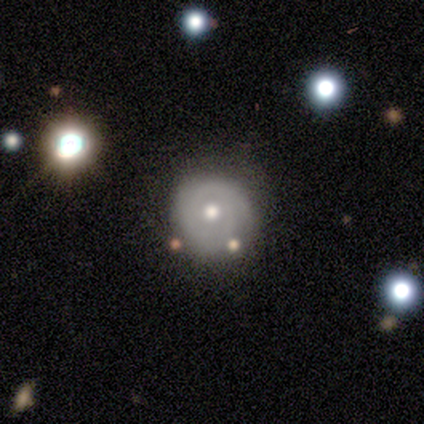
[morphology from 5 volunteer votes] This appears to be a featured or disk galaxy (100%) with no bar (80%), 1 (25%, tied with 2, 3 and can't tell) tight (100%) spiral arms (80%) and a moderate central bulge (80%). Merging: none (80%).